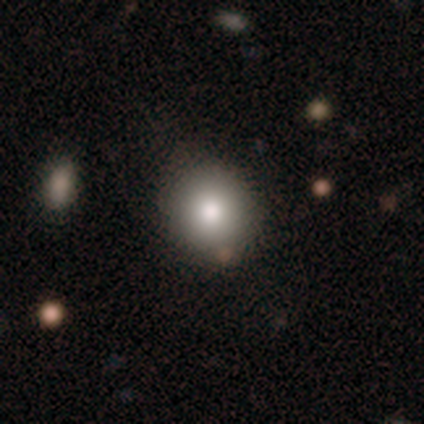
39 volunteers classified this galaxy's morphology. This appears to be a smooth galaxy with no disk features (77%) that is round (83%). Merging: none (74%).